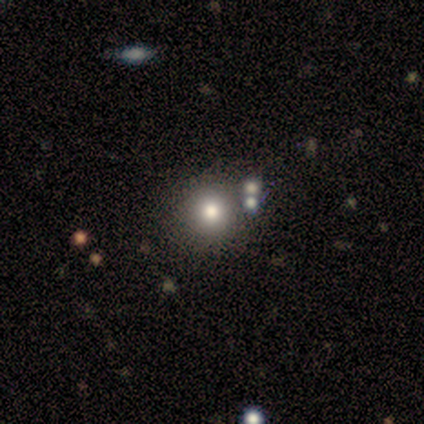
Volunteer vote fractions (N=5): Volunteers were most divided on "smooth or featured": smooth: 80%, star or artifact: 20%, featured or disk: 0%. More confident: how rounded — round (100%); merging — none (100%).